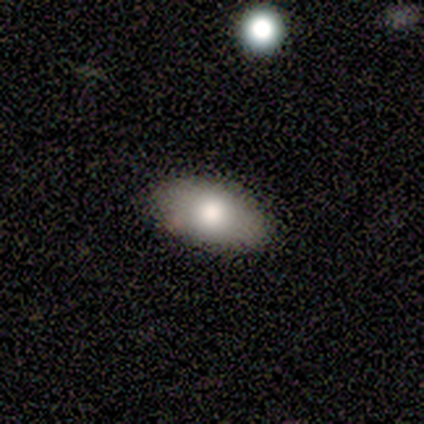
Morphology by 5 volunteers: Q: Smooth or featured?
A: smooth (60%); runner-up: featured or disk (20%)
Q: How rounded?
A: in between (100%)
Q: Merging?
A: none (100%)